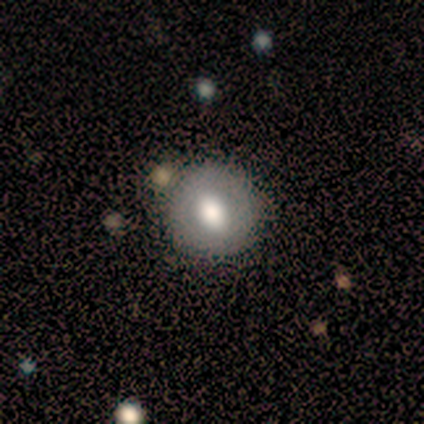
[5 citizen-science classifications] smooth 60%, featured or disk 40%, star or artifact 0%. Down the decision tree: how rounded — round (67%); merging — none (100%).